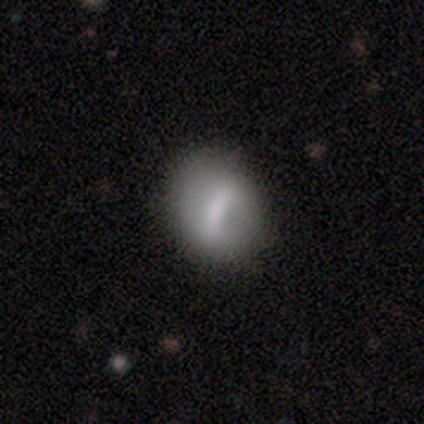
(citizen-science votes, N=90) smooth_or_featured: smooth (p=0.48) [alt: featured or disk p=0.43]
how_rounded: round (p=0.49) [alt: in between p=0.42]
merging: none (p=0.71) [alt: minor disturbance p=0.21]